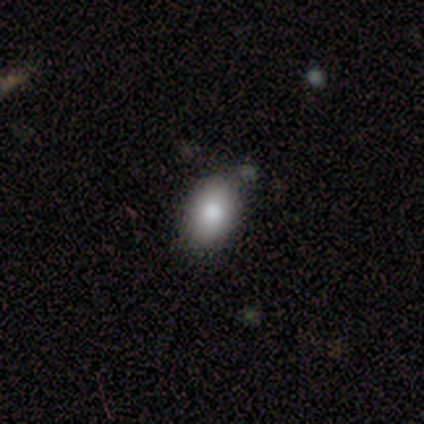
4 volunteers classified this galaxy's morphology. Q: Smooth or featured?
A: smooth (100%)
Q: How rounded?
A: round (50%); tied with: in between (50%)
Q: Merging?
A: none (75%); runner-up: minor disturbance (25%)